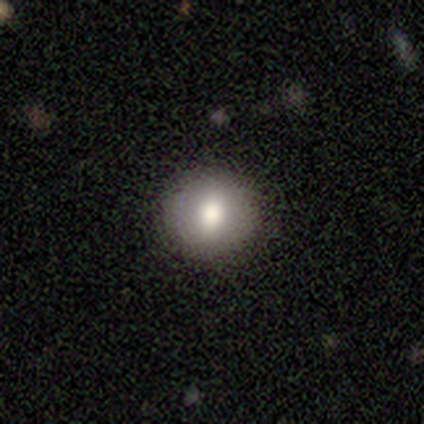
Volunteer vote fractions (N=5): Smooth or featured? smooth (60%)
How rounded? round (100%)
Merging? none (75%)